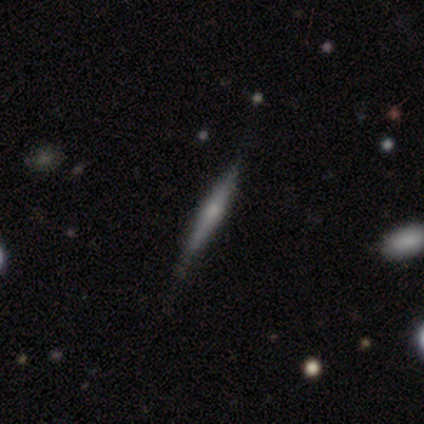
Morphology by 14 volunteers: This appears to be a smooth galaxy with no disk features (50%, tied with featured or disk) that is cigar-shaped (100%). Merging: none (79%).